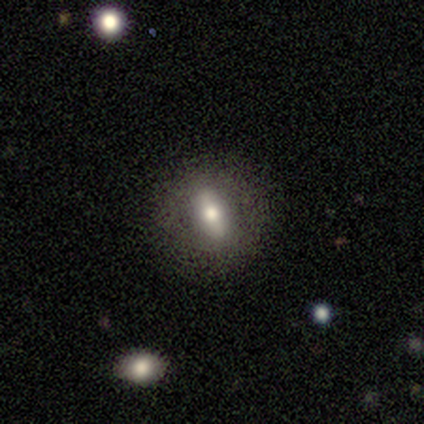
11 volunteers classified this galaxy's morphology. A smooth galaxy with no disk features (55%) that is round (50%).

Vote fractions:
- Smooth or featured? smooth: 55% / featured or disk: 36% / star or artifact: 9%
- How rounded? round: 50% / in between: 33% / cigar-shaped: 17%
- Merging? none: 80% / minor disturbance: 20% / major disturbance: 0% / merger: 0%